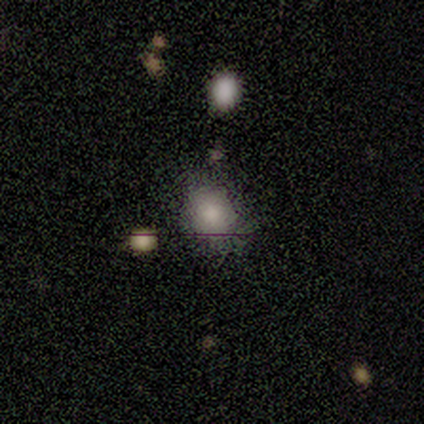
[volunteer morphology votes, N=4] Volunteers were most divided on "how rounded": in between: 67%, round: 33%, cigar-shaped: 0%. More confident: smooth or featured — smooth (75%); merging — none (67%).